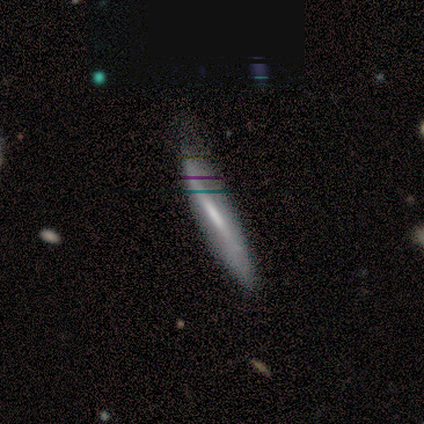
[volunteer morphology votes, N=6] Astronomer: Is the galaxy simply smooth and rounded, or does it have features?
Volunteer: smooth — 50%, tied with featured or disk at 50%.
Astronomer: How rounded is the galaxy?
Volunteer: cigar-shaped — 100%.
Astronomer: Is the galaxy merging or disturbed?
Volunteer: minor disturbance — 83%.